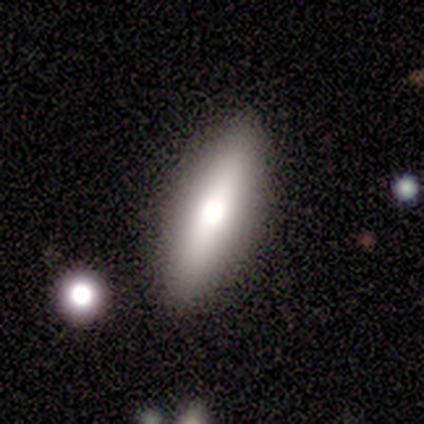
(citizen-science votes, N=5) A featured or disk galaxy (60%) with no bar (100%), no spiral arms (100%) and a dominant central bulge (50%, tied with large).

Vote fractions:
- Smooth or featured? featured or disk: 60% / smooth: 40% / star or artifact: 0%
- Edge-on disk? no: 67% / yes: 33%
- Bar? no: 100% / strong: 0% / weak: 0%
- Spiral arms? no: 100% / yes: 0%
- Bulge size? dominant: 50% (tied) / large: 50% (tied) / moderate: 0% / small: 0% / none: 0%
- Merging? none: 100% / minor disturbance: 0% / major disturbance: 0% / merger: 0%